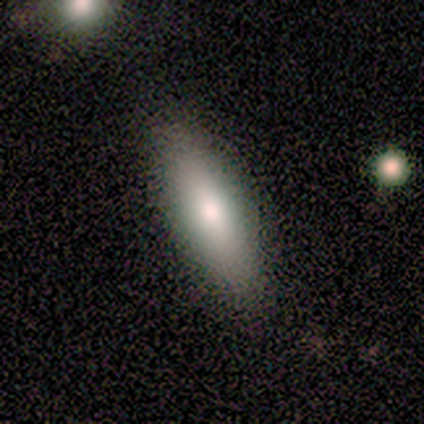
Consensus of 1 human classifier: A smooth galaxy with no disk features (100%) that is cigar-shaped (100%). Merging: minor disturbance (100%).